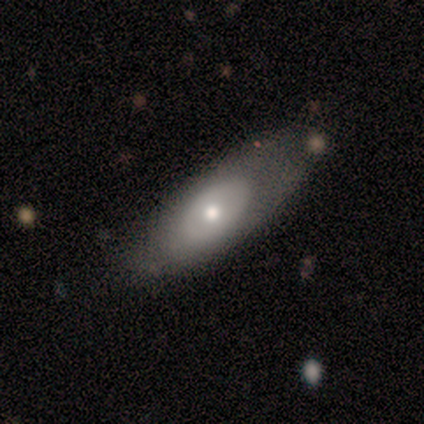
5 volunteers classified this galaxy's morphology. smooth_or_featured: smooth (p=0.60) [alt: featured or disk p=0.40]
how_rounded: in between (p=0.67) [alt: cigar-shaped p=0.33]
merging: minor disturbance (p=0.60) [alt: none p=0.40]